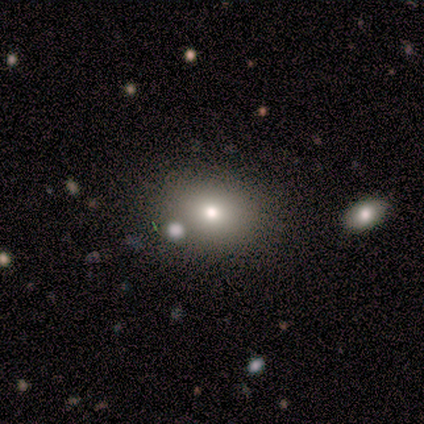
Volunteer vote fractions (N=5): Volunteers were most divided on "how rounded" (2-way tie): round: 50%, in between: 50%, cigar-shaped: 0%. More confident: smooth or featured — smooth (80%); merging — none (50%).